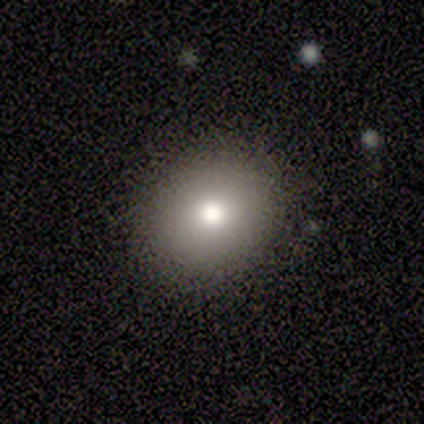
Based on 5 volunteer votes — smooth 100%, featured or disk 0%, star or artifact 0%. Down the decision tree: how rounded — round (80%); merging — none (100%).